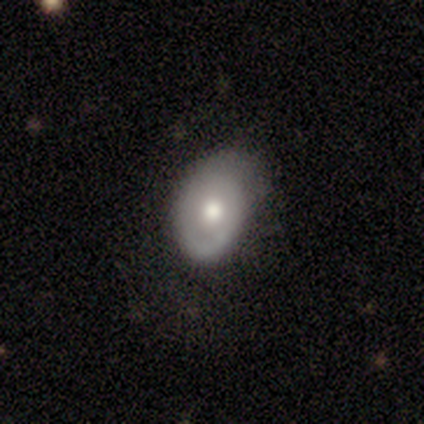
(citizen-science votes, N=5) Volunteers were most divided on "spiral winding" (2-way tie): tight: 50%, loose: 50%, medium: 0%; "spiral arm count" (2-way tie): 2: 50%, can't tell: 50%, 1: 0%, 3: 0%, 4: 0%, more than 4: 0%. More confident: edge-on disk — no (100%); bar — no (67%); spiral arms — yes (67%); bulge size — moderate (67%); smooth or featured — featured or disk (60%); merging — none (60%).